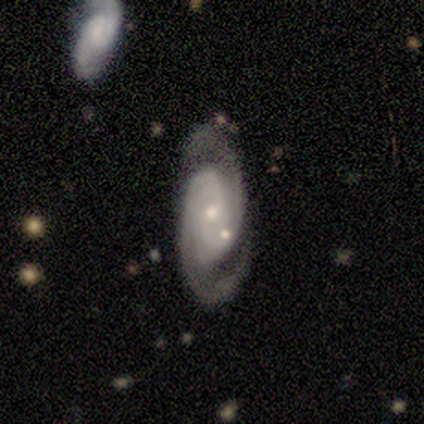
Morphology: type=featured or disk (95%); edge-on=no (97%); bar=no (62%); spiral arms=yes (94%); winding=medium (50%); arm count=2 (84%); bulge=small (62%); merging=none (61%).